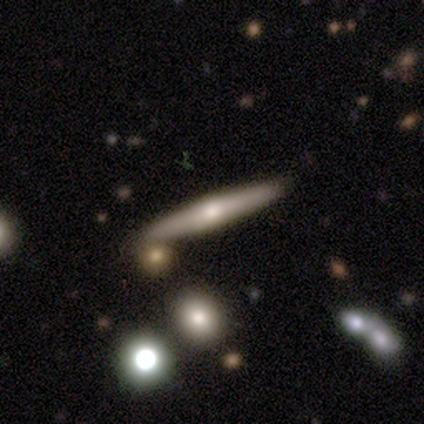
Smooth or featured? star or artifact (50%)